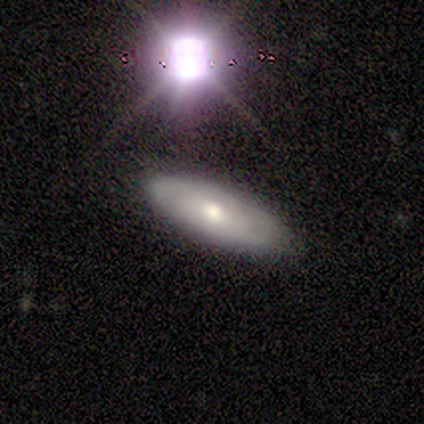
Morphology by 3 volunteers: smooth_or_featured: featured or disk (p=0.67) [alt: star or artifact p=0.33]
disk_edge_on: yes (p=0.50) [tied with: no p=0.50]
edge_on_bulge: rounded (p=1.00)
merging: none (p=0.50) [tied with: minor disturbance p=0.50]